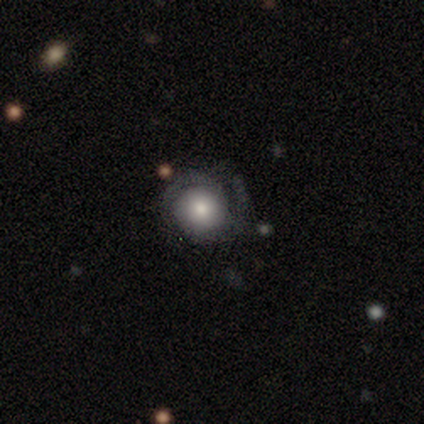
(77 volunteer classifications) Morphology: type=featured or disk (57%); edge-on=no (98%); bar=no (95%); spiral arms=yes (81%); winding=tight (66%); arm count=2 (77%); bulge=moderate (35%); merging=none (57%).